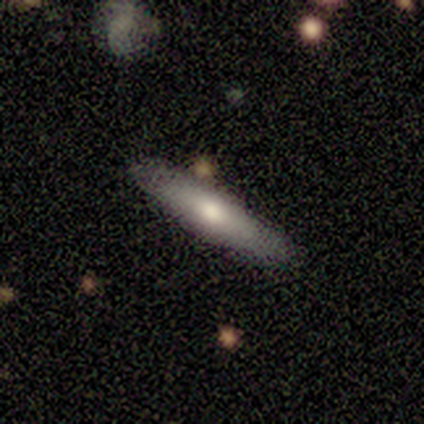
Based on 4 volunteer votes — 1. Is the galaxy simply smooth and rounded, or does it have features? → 50% smooth (tied), 50% featured or disk (tied), 0% star or artifact.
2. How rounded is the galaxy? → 50% in between (tied), 50% cigar-shaped (tied), 0% round.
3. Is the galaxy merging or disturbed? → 75% none, 25% merger, 0% minor disturbance, 0% major disturbance.